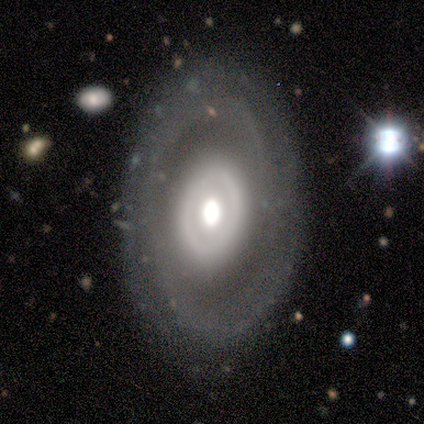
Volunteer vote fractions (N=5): A featured or disk galaxy (80%) with no bar (100%), no spiral arms (67%) and a large central bulge (67%).

Vote fractions:
- Smooth or featured? featured or disk: 80% / star or artifact: 20% / smooth: 0%
- Edge-on disk? no: 75% / yes: 25%
- Bar? no: 100% / strong: 0% / weak: 0%
- Spiral arms? no: 67% / yes: 33%
- Bulge size? large: 67% / moderate: 33% / dominant: 0% / small: 0% / none: 0%
- Merging? none: 100% / minor disturbance: 0% / major disturbance: 0% / merger: 0%